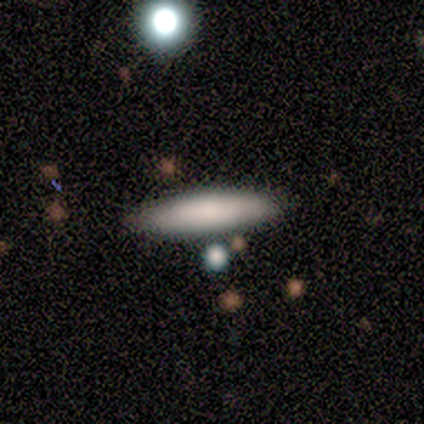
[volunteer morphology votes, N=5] Q: Smooth or featured?
A: smooth (100%)
Q: How rounded?
A: cigar-shaped (100%)
Q: Merging?
A: none (100%)